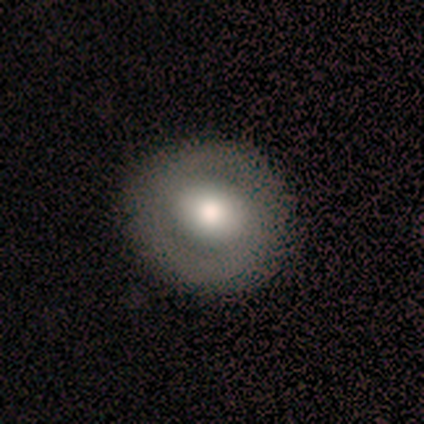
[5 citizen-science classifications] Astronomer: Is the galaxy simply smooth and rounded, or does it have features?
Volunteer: smooth — 60%.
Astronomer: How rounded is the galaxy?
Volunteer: round — 100%.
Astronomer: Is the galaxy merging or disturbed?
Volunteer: none — 75%.